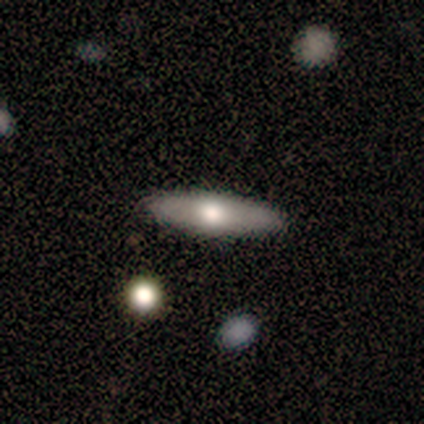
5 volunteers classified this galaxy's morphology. Smooth or featured? 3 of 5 (60%) said smooth. How rounded? 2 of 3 (67%) said cigar-shaped. Merging? 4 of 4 (100%) said none.